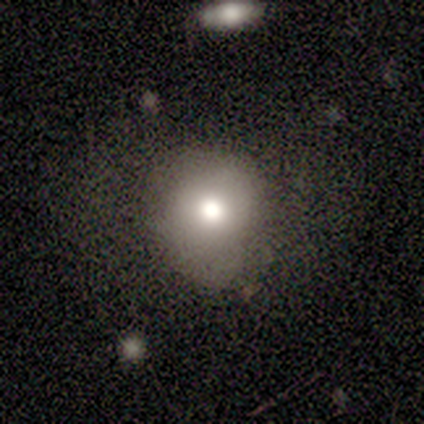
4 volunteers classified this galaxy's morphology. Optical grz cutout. It shows a smooth galaxy with no disk features (75%) that is round (100%). Merging: minor disturbance (67%).